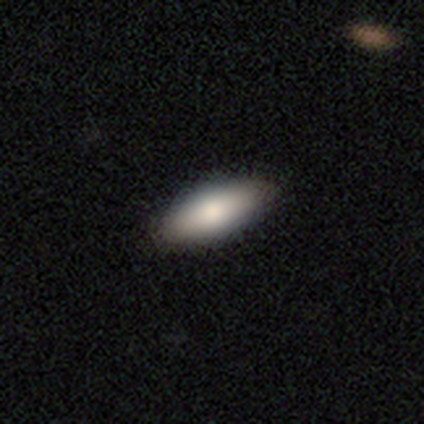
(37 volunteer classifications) A smooth galaxy with no disk features (81%) that is in between round and cigar-shaped (90%). Merging: none (94%).